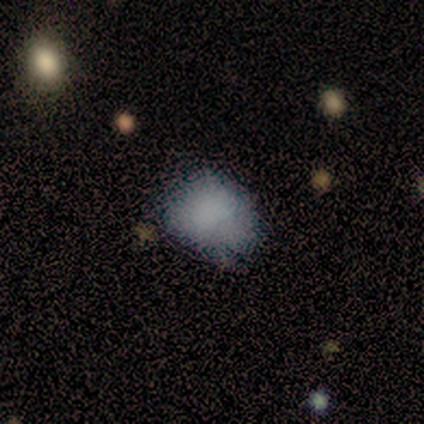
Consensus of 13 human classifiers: This is likely a smooth galaxy (69%). How rounded: possibly in between (56%). Merging: possibly none (55%).